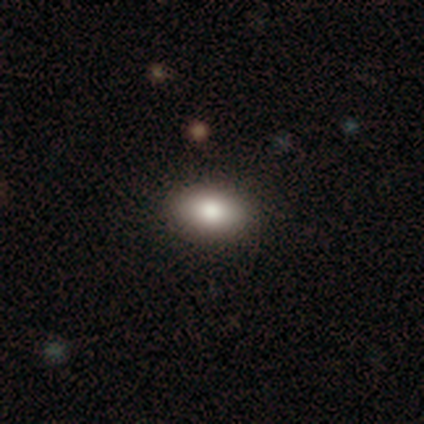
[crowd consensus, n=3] A smooth galaxy with no disk features (100%) that is in between round and cigar-shaped (100%).

Vote fractions:
- Smooth or featured? smooth: 100% / featured or disk: 0% / star or artifact: 0%
- How rounded? in between: 100% / round: 0% / cigar-shaped: 0%
- Merging? none: 100% / minor disturbance: 0% / major disturbance: 0% / merger: 0%